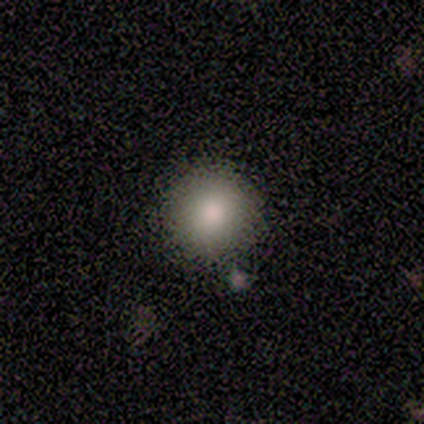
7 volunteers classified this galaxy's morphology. Volunteers were most divided on "smooth or featured": smooth: 71%, star or artifact: 29%, featured or disk: 0%. More confident: how rounded — round (80%); merging — none (80%).